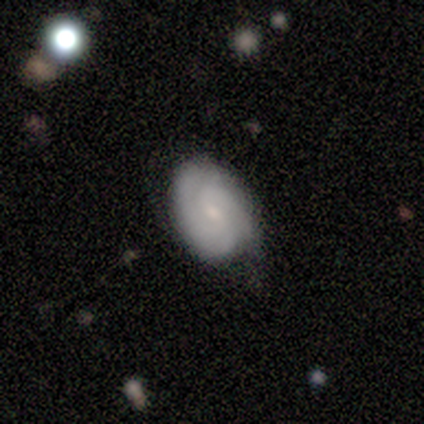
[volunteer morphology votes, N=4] Smooth or featured? featured or disk (75%)
Edge-on disk? no (100%)
Bar? weak (100%)
Spiral arms? yes (100%)
Spiral winding? medium (67%)
Spiral arm count? 2 (100%)
Bulge size? small (67%)
Merging? minor disturbance (67%)